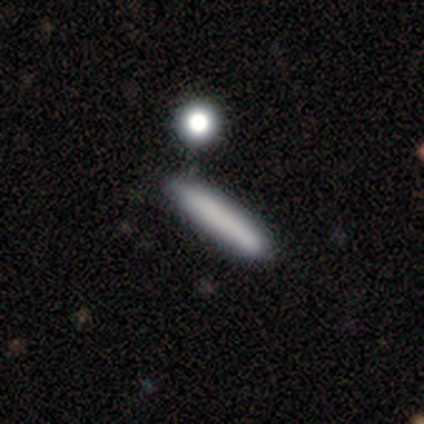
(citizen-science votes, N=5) Overall: smooth (60%; star or artifact 40%). How rounded: cigar-shaped (100%). Merging: minor disturbance (67%; major disturbance 33%).